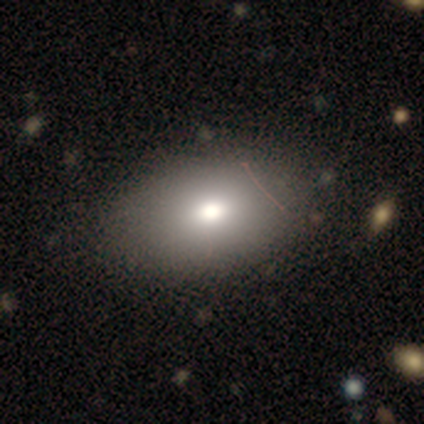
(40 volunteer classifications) Volunteers were most divided on "merging": none: 47%, minor disturbance: 3%, major disturbance: 3%, merger: 3%. More confident: how rounded — in between (88%); smooth or featured — smooth (82%).